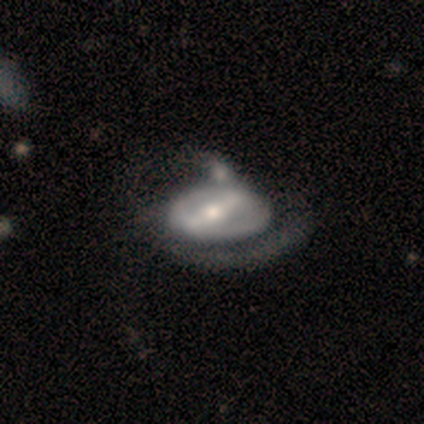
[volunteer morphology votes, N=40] A featured or disk galaxy (82%) with a strong bar (84%), no spiral arms (56%) and a moderate central bulge (75%). Merging: minor disturbance (30%).